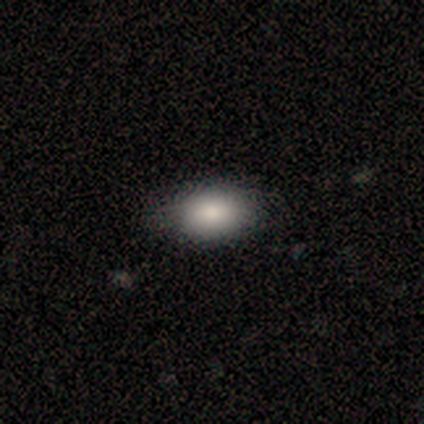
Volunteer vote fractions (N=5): smooth-or-featured: smooth: 80% | star or artifact: 20% | featured or disk: 0%
  how-rounded: in between: 100% | round: 0% | cigar-shaped: 0%
  merging: none: 75% | major disturbance: 25% | minor disturbance: 0% | merger: 0%